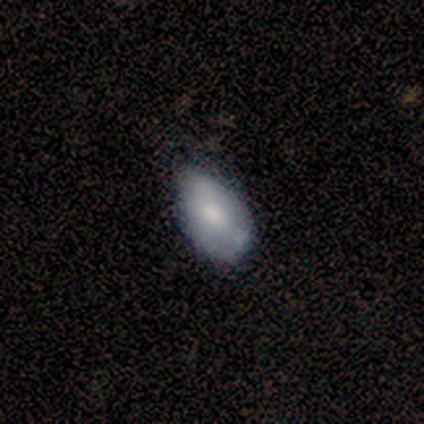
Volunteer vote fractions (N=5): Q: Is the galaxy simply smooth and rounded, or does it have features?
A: featured or disk — 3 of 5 (60%).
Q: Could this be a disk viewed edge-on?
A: no — 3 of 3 (100%).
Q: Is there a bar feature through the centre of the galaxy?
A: no — 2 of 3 (67%).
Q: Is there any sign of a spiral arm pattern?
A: no — 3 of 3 (100%).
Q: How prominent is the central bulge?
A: moderate — 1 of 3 (33%, tied with small and none).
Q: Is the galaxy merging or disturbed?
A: minor disturbance — 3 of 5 (60%).